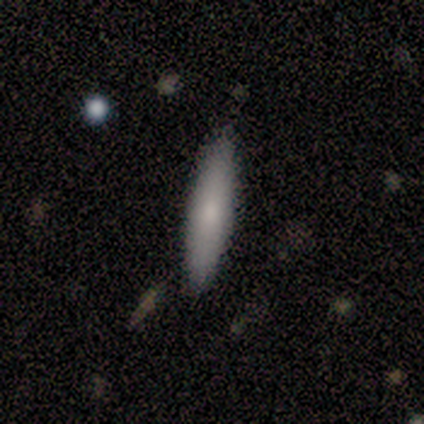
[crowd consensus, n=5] Overall: smooth (100%). How rounded: cigar-shaped (80%). Merging: none (80%).